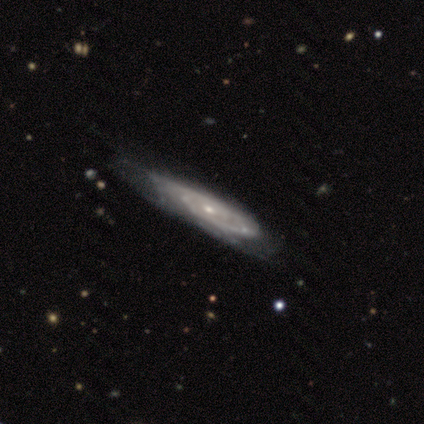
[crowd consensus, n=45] This appears to be a featured or disk galaxy (87%) with no bar (88%), tight (61%) spiral arms (94%) and a small central bulge (82%). Merging: none (58%).